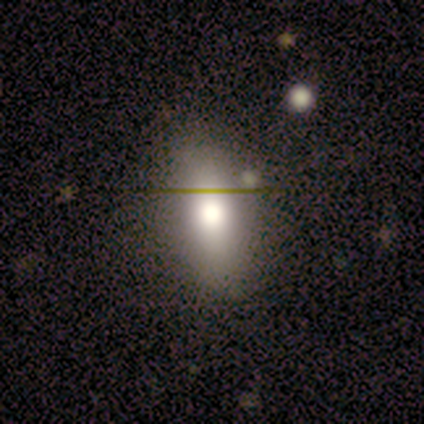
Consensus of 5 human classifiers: Morphology: type=smooth (60%); roundness=in between (67%); merging=none (100%).